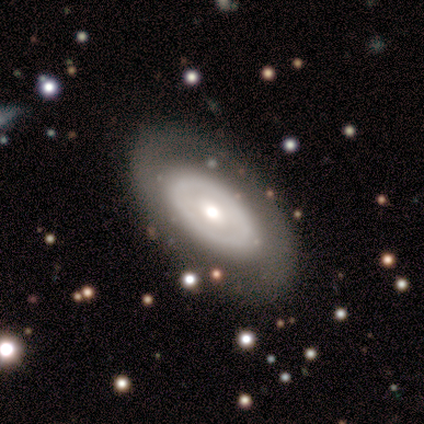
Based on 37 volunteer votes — smooth-or-featured: featured or disk: 54% | smooth: 38% | star or artifact: 8%
  disk-edge-on: no: 90% | yes: 10%
    bar: no: 83% | weak: 17% | strong: 0%
    has-spiral-arms: no: 83% | yes: 17%
    bulge-size: moderate: 67% | small: 22% | large: 11% | dominant: 0% | none: 0%
  merging: none: 79% | major disturbance: 12% | minor disturbance: 9% | merger: 0%